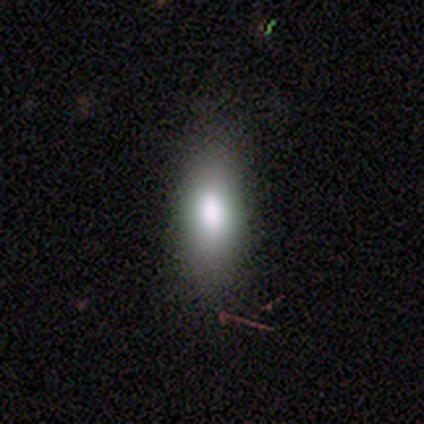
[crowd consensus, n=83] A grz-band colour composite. It shows a smooth galaxy with no disk features (75%) that is in between round and cigar-shaped (71%). Merging: none (73%).